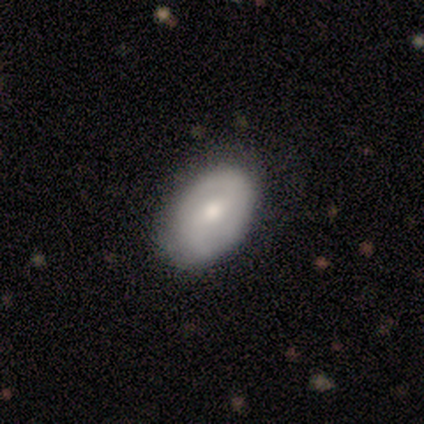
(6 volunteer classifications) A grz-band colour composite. It shows a smooth galaxy with no disk features (67%) that is in between round and cigar-shaped (100%). Merging: none (83%).